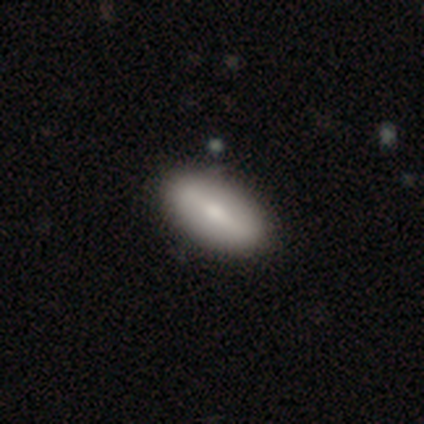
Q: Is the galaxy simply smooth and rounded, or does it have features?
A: smooth — 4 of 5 (80%).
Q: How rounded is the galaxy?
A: in between — 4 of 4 (100%).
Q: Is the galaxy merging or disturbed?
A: none — 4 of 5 (80%).